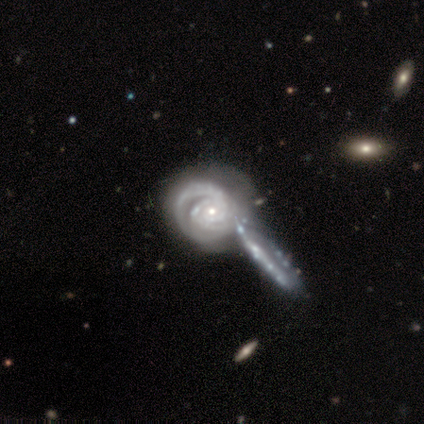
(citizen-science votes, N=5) Smooth or featured? featured or disk (80%)
Edge-on disk? no (100%)
Bar? no (100%)
Spiral arms? yes (100%)
Spiral winding? tight (75%)
Spiral arm count? 2 (25%, tied with 3, 4 and can't tell)
Bulge size? small (75%)
Merging? none (50%)